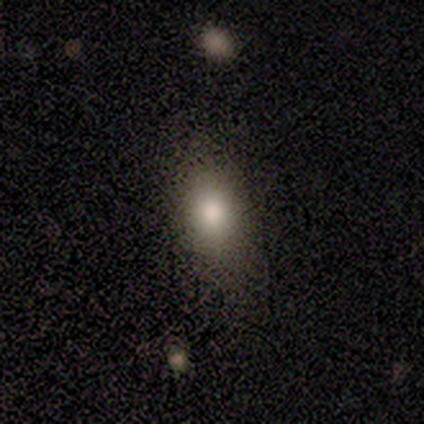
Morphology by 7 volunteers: This appears to be a smooth galaxy with no disk features (86%) that is in between round and cigar-shaped (83%). Merging: none (67%).